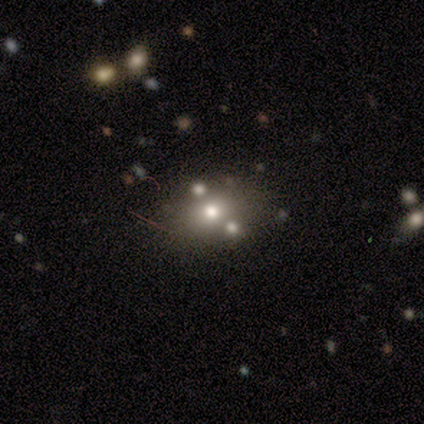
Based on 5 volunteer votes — This is likely a featured or disk galaxy (60%). It is clearly not viewed edge-on (100%). Bar: clearly no (100%). Spiral arm pattern: clearly no (100%). Central bulge: likely moderate (67%). Merging: marginally none (40%, tied with minor disturbance).